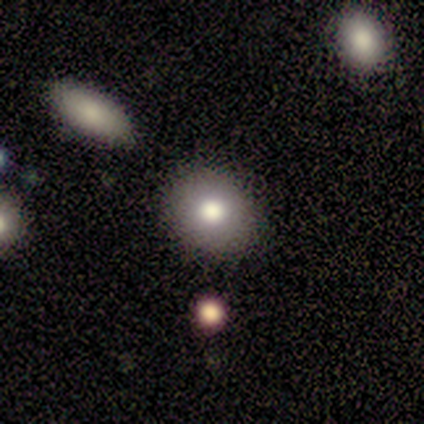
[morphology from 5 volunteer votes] Overall: smooth (80%). How rounded: round (100%). Merging: none (100%).